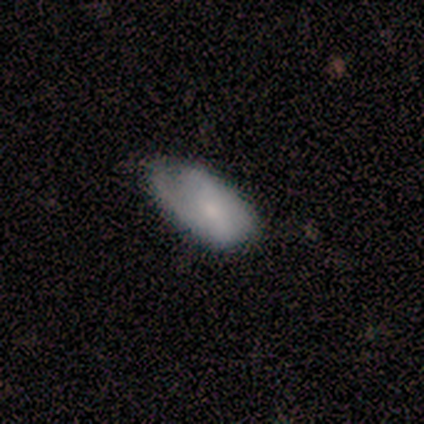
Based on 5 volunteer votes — Volunteers were most divided on "merging": minor disturbance: 60%, none: 40%, major disturbance: 0%, merger: 0%. More confident: smooth or featured — smooth (100%); how rounded — in between (100%).